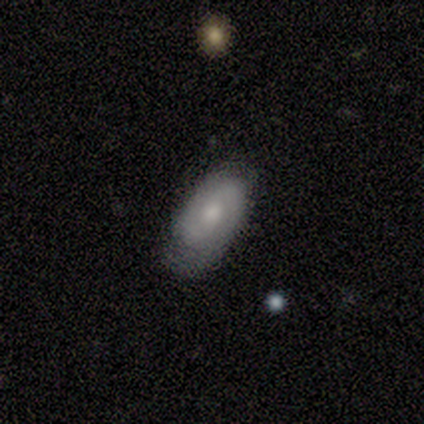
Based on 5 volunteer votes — This is clearly a featured or disk galaxy (80%). It is clearly not viewed edge-on (100%). Bar: possibly no (50%). Spiral arm pattern: clearly yes (100%). Spiral arm count: likely 2 (75%). Spiral winding: possibly tight (50%). Central bulge: possibly moderate (50%). Merging: clearly none (100%).